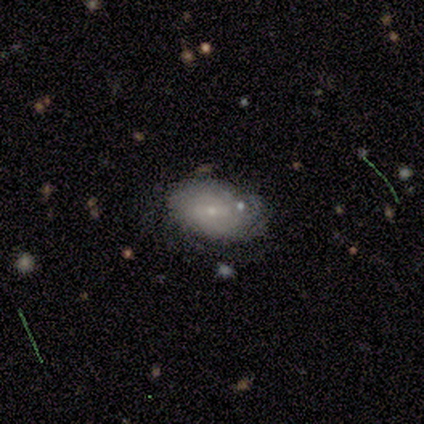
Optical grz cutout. It shows a smooth galaxy with no disk features (60%) that is in between round and cigar-shaped (67%). Merging: none (40%).